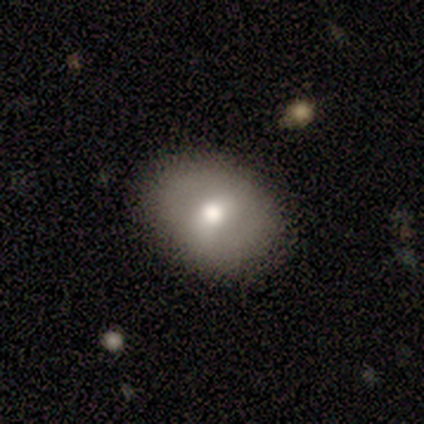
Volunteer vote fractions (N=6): Q: Smooth or featured?
A: smooth (67%); runner-up: featured or disk (33%)
Q: How rounded?
A: round (75%); runner-up: in between (25%)
Q: Merging?
A: none (83%); runner-up: minor disturbance (17%)